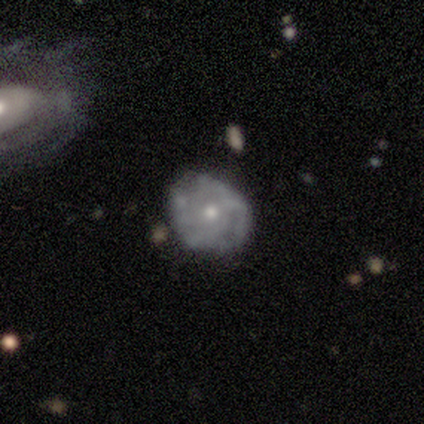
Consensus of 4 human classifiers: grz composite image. It shows a featured or disk galaxy (50%) with no bar (100%), tight (50%, tied with medium) spiral arms (100%) and a small central bulge (100%). Merging: none (100%).